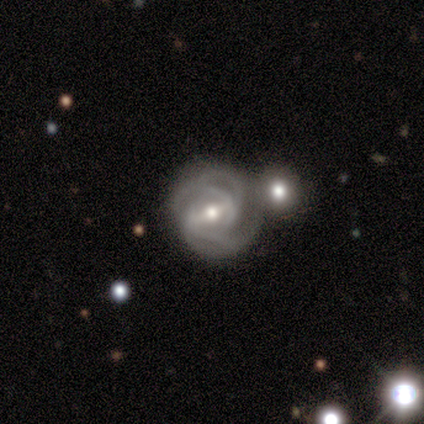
Smooth or featured? 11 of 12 (92%) said featured or disk. Edge-on disk? 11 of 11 (100%) said no. Bar? 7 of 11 (64%) said strong. Spiral arms? 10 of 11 (91%) said yes. Spiral winding? 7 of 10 (70%) said tight. Spiral arm count? 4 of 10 (40%) said can't tell. Bulge size? 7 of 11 (64%) said moderate. Merging? 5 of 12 (42%) said none.